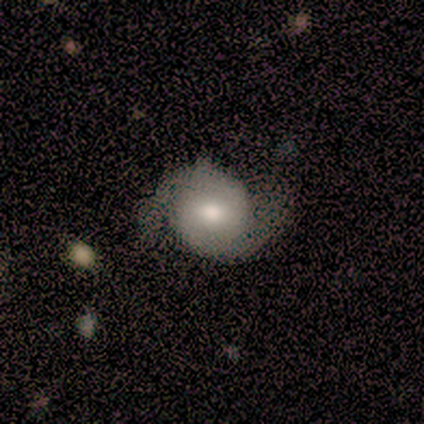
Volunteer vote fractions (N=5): Smooth or featured? featured or disk (60%)
Edge-on disk? no (100%)
Bar? no (100%)
Spiral arms? yes (100%)
Spiral winding? tight (67%)
Spiral arm count? 2 (100%)
Bulge size? moderate (100%)
Merging? none (80%)